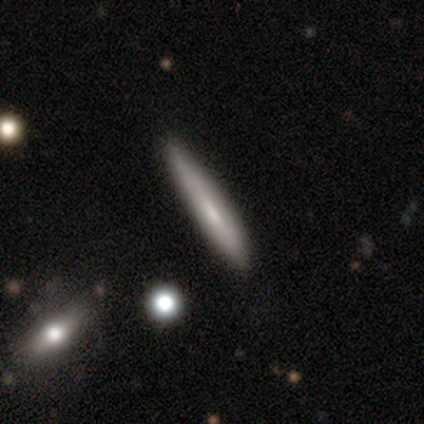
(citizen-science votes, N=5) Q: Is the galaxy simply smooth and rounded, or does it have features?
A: smooth — 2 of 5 (40%, tied with featured or disk).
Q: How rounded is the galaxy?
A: cigar-shaped — 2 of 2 (100%).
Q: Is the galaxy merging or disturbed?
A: none — 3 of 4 (75%).